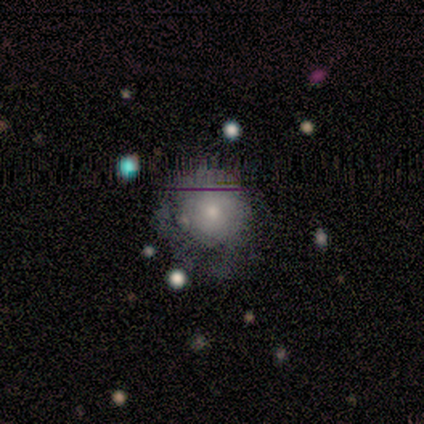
Overall: smooth (60%; featured or disk 20%). How rounded: round (67%; in between 33%). Merging: minor disturbance (75%).